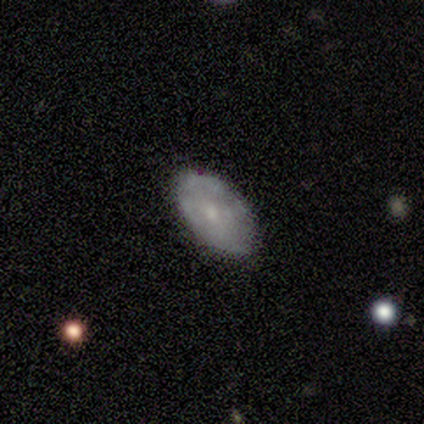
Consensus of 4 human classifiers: smooth_or_featured: smooth (p=0.50) [tied with: featured or disk p=0.50]
how_rounded: in between (p=1.00)
merging: none (p=0.75) [alt: minor disturbance p=0.25]